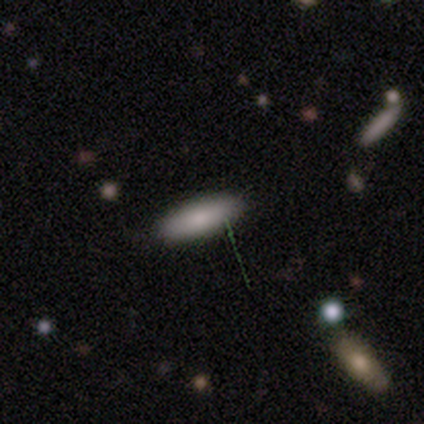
Volunteers were most divided on "how rounded": cigar-shaped: 60%, in between: 40%, round: 0%. More confident: smooth or featured — smooth (100%); merging — none (100%).